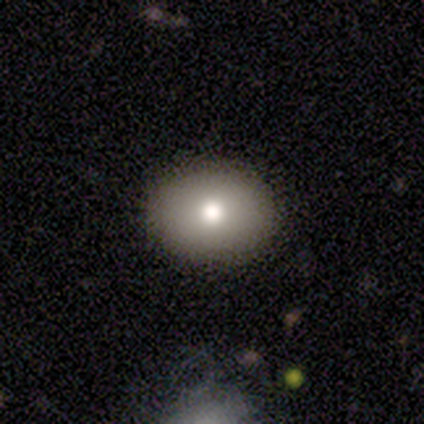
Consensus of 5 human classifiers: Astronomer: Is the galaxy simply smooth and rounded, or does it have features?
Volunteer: smooth — 80%.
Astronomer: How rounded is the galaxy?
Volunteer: round — 50%, tied with in between at 50%.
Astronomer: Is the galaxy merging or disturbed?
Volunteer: none — 100%.